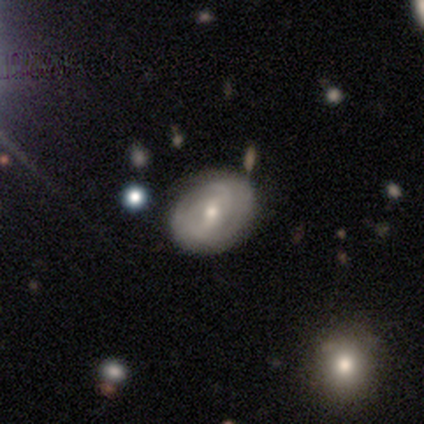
Q: Smooth or featured?
A: featured or disk (83%); runner-up: smooth (17%)
Q: Edge-on disk?
A: no (80%); runner-up: yes (20%)
Q: Bar?
A: weak (75%); runner-up: strong (25%)
Q: Spiral arms?
A: yes (100%)
Q: Spiral winding?
A: tight (75%); runner-up: medium (25%)
Q: Spiral arm count?
A: 2 (75%); runner-up: 3 (25%)
Q: Bulge size?
A: small (75%); runner-up: moderate (25%)
Q: Merging?
A: none (83%); runner-up: minor disturbance (17%)